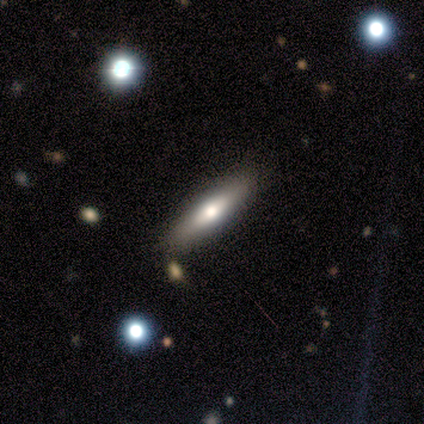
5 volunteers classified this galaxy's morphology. Overall: featured or disk (60%; smooth 40%). Edge-on disk: yes (67%; no 33%). Edge-on bulge: rounded (100%). Merging: none (80%).